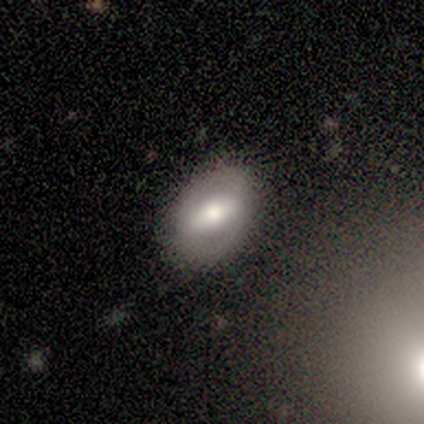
A featured or disk galaxy (57%) with a weak bar (75%), 2 (67%) medium (67%) spiral arms (75%) and a moderate central bulge (100%).

Vote fractions:
- Smooth or featured? featured or disk: 57% / smooth: 29% / star or artifact: 14%
- Edge-on disk? no: 100% / yes: 0%
- Bar? weak: 75% / no: 25% / strong: 0%
- Spiral arms? yes: 75% / no: 25%
- Spiral winding? medium: 67% / loose: 33% / tight: 0%
- Spiral arm count? 2: 67% / can't tell: 33% / 1: 0% / 3: 0% / 4: 0% / more than 4: 0%
- Bulge size? moderate: 100% / dominant: 0% / large: 0% / small: 0% / none: 0%
- Merging? none: 67% / minor disturbance: 17% / merger: 17% / major disturbance: 0%